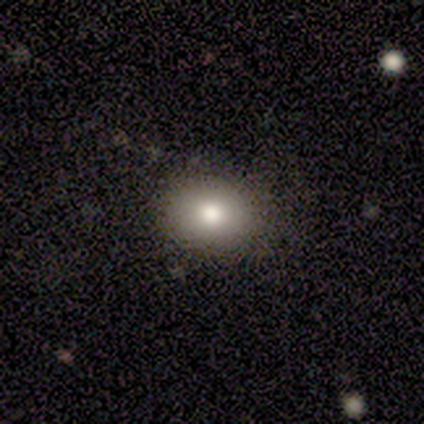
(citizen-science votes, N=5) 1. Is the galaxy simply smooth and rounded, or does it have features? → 80% smooth, 20% featured or disk, 0% star or artifact.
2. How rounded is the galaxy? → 75% in between, 25% round, 0% cigar-shaped.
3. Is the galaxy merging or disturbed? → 100% none, 0% minor disturbance, 0% major disturbance, 0% merger.